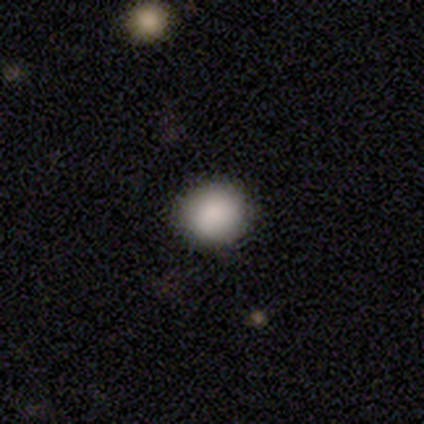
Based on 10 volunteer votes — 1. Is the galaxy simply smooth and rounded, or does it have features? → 100% smooth, 0% featured or disk, 0% star or artifact.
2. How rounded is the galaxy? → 70% round, 30% in between, 0% cigar-shaped.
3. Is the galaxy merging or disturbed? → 80% none, 20% minor disturbance, 0% major disturbance, 0% merger.